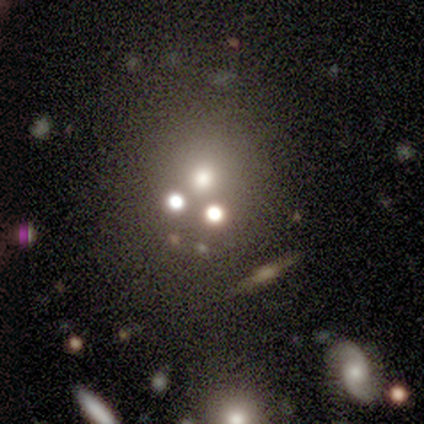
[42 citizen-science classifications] This appears to be a star or artifact, not a galaxy (43%).